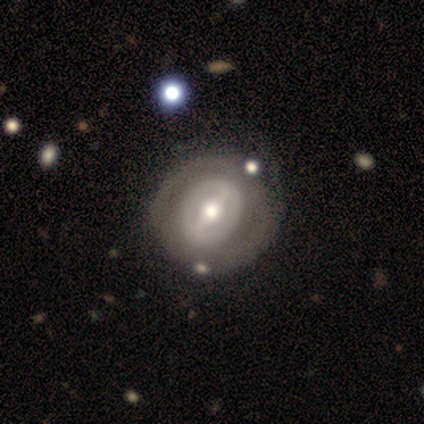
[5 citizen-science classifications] featured or disk 80%, smooth 20%, star or artifact 0%. Down the decision tree: edge-on disk — no (100%); bar — strong (50%, tied with weak); spiral arms — no (100%); bulge size — large (50%, tied with moderate); merging — none (60%).